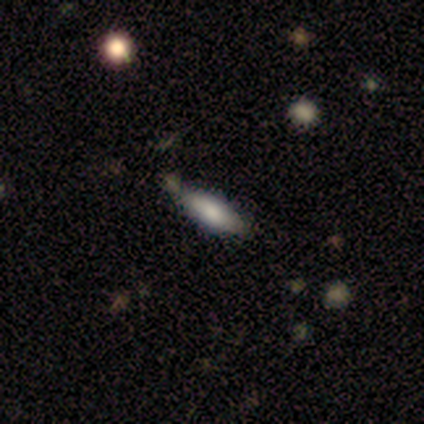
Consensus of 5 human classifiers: Morphology: type=smooth (60%); roundness=in between (100%); merging=none (60%).